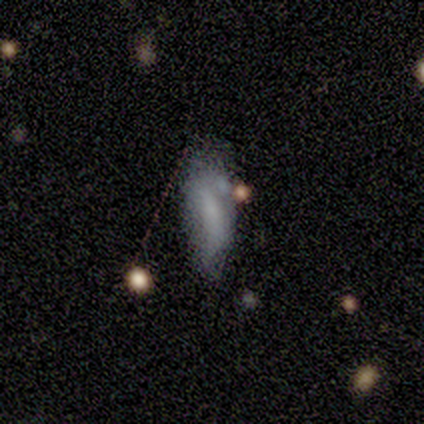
smooth_or_featured: smooth (p=0.75) [alt: star or artifact p=0.25]
how_rounded: in between (p=1.00)
merging: major disturbance (p=0.67) [alt: none p=0.33]